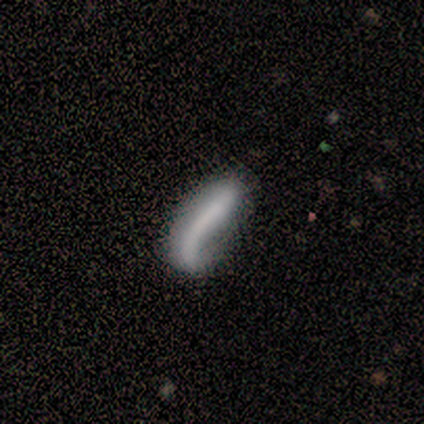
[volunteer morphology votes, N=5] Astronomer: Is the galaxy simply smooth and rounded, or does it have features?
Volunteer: smooth — 80%.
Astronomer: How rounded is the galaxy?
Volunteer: cigar-shaped — 75%.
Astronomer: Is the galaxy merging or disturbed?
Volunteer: none — 25%, tied with minor disturbance, major disturbance and merger at 25%.